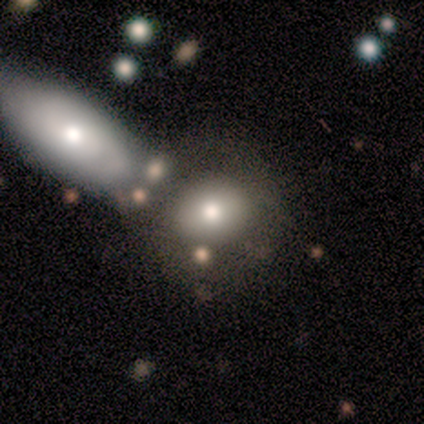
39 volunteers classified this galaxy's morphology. This appears to be a smooth galaxy with no disk features (62%) that is round (67%). Merging: none (40%, tied with merger).